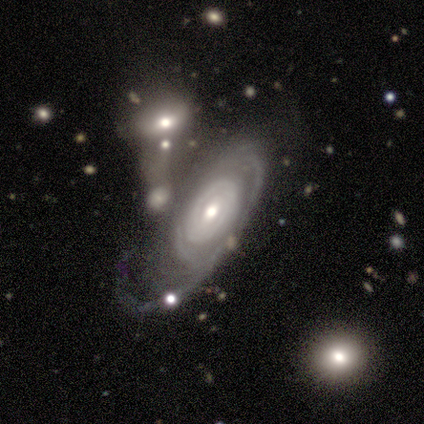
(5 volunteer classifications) smooth-or-featured: featured or disk: 100% | smooth: 0% | star or artifact: 0%
  disk-edge-on: no: 100% | yes: 0%
    bar: no: 60% | weak: 40% | strong: 0%
    has-spiral-arms: yes: 100% | no: 0%
      spiral-winding: tight: 80% | loose: 20% | medium: 0%
      spiral-arm-count: can't tell: 60% | 1: 20% | more than 4: 20% | 2: 0% | 3: 0% | 4: 0%
    bulge-size: moderate: 80% | small: 20% | dominant: 0% | large: 0% | none: 0%
  merging: none: 40% (tied) | major disturbance: 40% (tied) | minor disturbance: 20% | merger: 0%